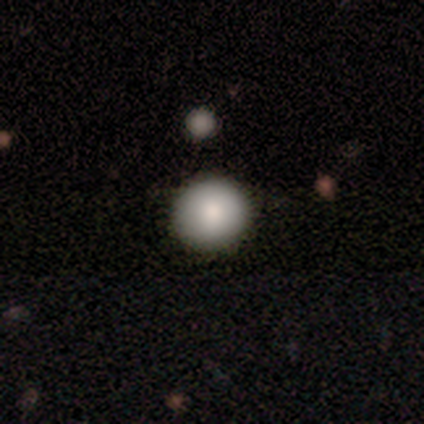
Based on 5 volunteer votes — Smooth or featured? smooth (80%)
How rounded? round (100%)
Merging? none (100%)